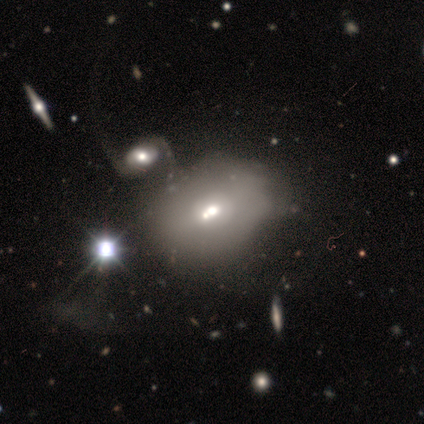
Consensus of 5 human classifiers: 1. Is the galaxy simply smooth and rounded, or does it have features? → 100% smooth, 0% featured or disk, 0% star or artifact.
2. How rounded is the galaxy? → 100% in between, 0% round, 0% cigar-shaped.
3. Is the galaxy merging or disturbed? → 40% major disturbance (tied), 40% merger (tied), 20% none, 0% minor disturbance.